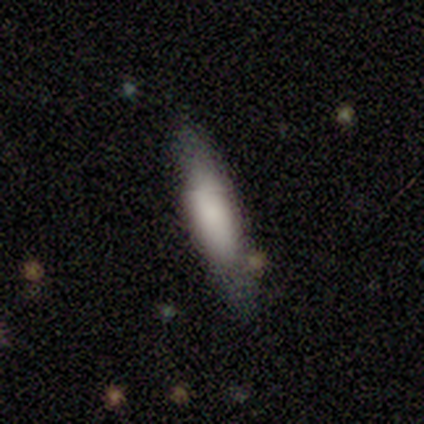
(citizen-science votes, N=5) Overall: smooth (60%; featured or disk 40%). How rounded: in between (67%; cigar-shaped 33%). Merging: none (80%).